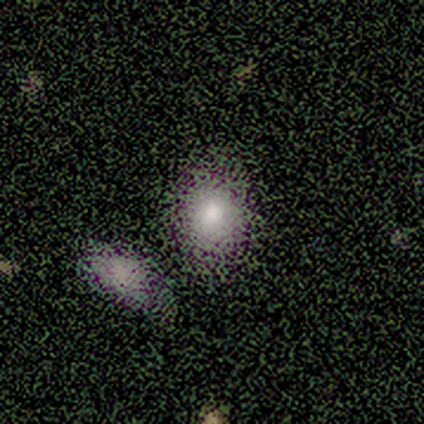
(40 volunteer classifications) Smooth or featured? smooth (78%)
How rounded? in between (52%)
Merging? none (39%)